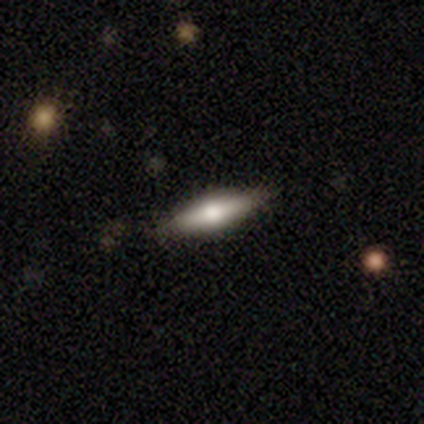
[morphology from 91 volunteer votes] smooth_or_featured: smooth (p=0.47) [alt: featured or disk p=0.43]
how_rounded: cigar-shaped (p=0.74) [alt: in between p=0.26]
merging: none (p=0.90) [alt: minor disturbance p=0.06]